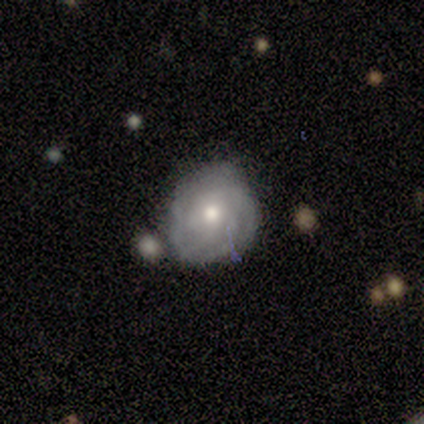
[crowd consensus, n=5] This appears to be a featured or disk galaxy (80%) with no bar (100%), more than 4 (50%) tight (100%) spiral arms (100%) and a moderate central bulge (100%). Merging: none (80%).